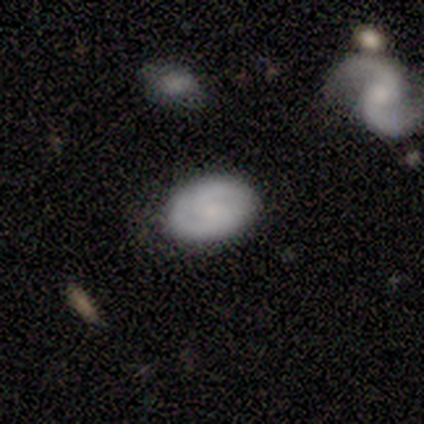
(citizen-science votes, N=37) A smooth galaxy with no disk features (59%) that is in between round and cigar-shaped (95%).

Vote fractions:
- Smooth or featured? smooth: 59% / featured or disk: 38% / star or artifact: 3%
- How rounded? in between: 95% / round: 5% / cigar-shaped: 0%
- Merging? none: 78% / minor disturbance: 19% / merger: 3% / major disturbance: 0%